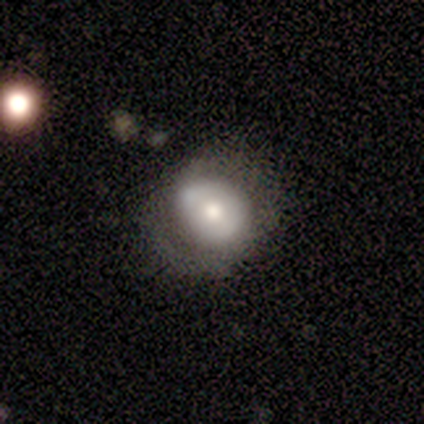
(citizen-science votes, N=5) smooth-or-featured: featured or disk: 60% | smooth: 20% | star or artifact: 20%
  disk-edge-on: no: 100% | yes: 0%
    bar: no: 100% | strong: 0% | weak: 0%
    has-spiral-arms: no: 100% | yes: 0%
    bulge-size: moderate: 67% | small: 33% | dominant: 0% | large: 0% | none: 0%
  merging: none: 75% | minor disturbance: 25% | major disturbance: 0% | merger: 0%